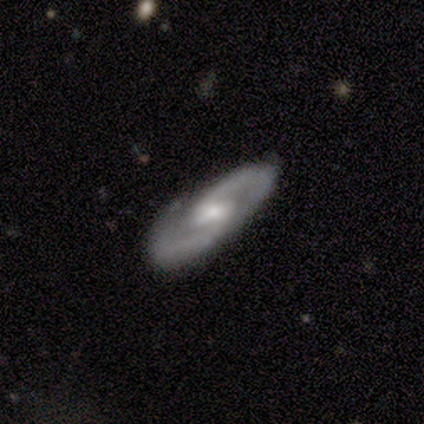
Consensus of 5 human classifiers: smooth-or-featured: featured or disk: 100% | smooth: 0% | star or artifact: 0%
  disk-edge-on: no: 100% | yes: 0%
    bar: no: 60% | strong: 20% | weak: 20%
    has-spiral-arms: yes: 100% | no: 0%
      spiral-winding: medium: 60% | tight: 40% | loose: 0%
      spiral-arm-count: 2: 100% | 1: 0% | 3: 0% | 4: 0% | more than 4: 0% | can't tell: 0%
    bulge-size: small: 80% | moderate: 20% | dominant: 0% | large: 0% | none: 0%
  merging: none: 80% | minor disturbance: 20% | major disturbance: 0% | merger: 0%